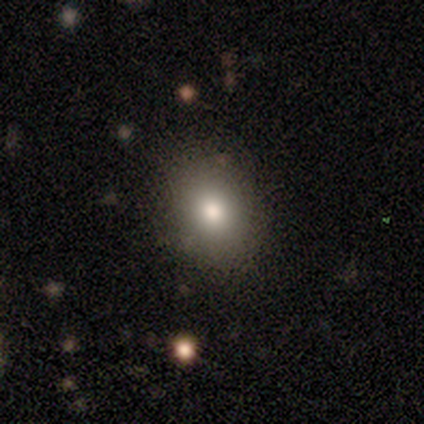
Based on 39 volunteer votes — Q: Smooth or featured?
A: smooth (82%); runner-up: star or artifact (13%)
Q: How rounded?
A: round (56%); runner-up: in between (44%)
Q: Merging?
A: none (88%); runner-up: minor disturbance (6%)